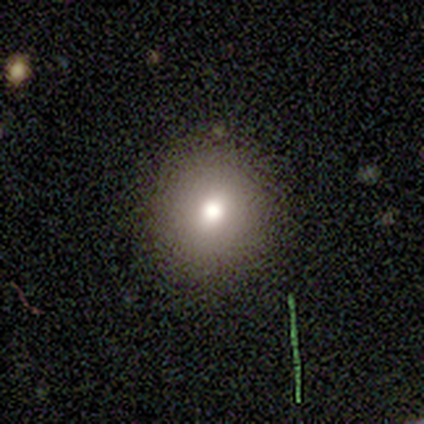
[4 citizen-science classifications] smooth-or-featured: smooth: 75% | star or artifact: 25% | featured or disk: 0%
  how-rounded: in between: 67% | round: 33% | cigar-shaped: 0%
  merging: none: 100% | minor disturbance: 0% | major disturbance: 0% | merger: 0%